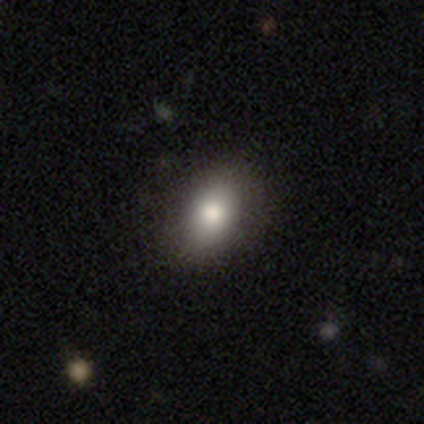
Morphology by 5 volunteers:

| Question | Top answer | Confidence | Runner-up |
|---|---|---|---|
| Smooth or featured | smooth | 100% | — |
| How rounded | in between | 80% | round (20%) |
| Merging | none | 100% | — |